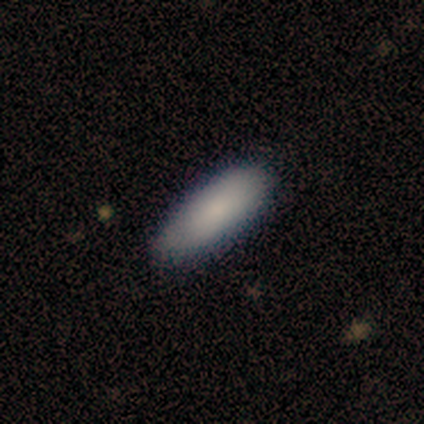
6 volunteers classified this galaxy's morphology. Overall: smooth (100%). How rounded: in between (100%). Merging: none (100%).